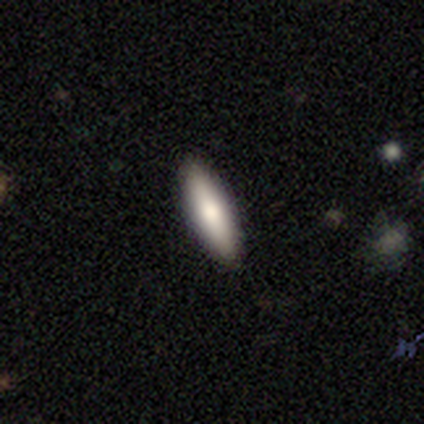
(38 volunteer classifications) Smooth or featured? 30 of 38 (79%) said smooth. How rounded? 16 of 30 (53%) said cigar-shaped. Merging? 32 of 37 (86%) said none.